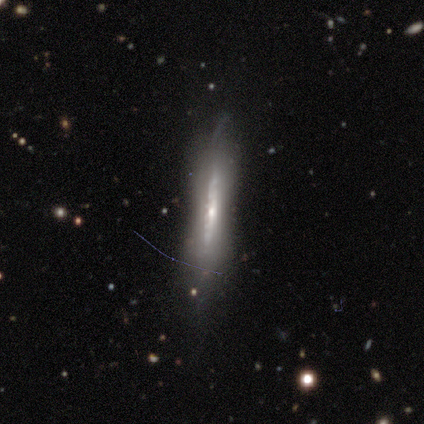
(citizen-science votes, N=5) Morphology: type=featured or disk (100%); edge-on=yes (80%); edge-on bulge=none (100%); merging=none (80%).